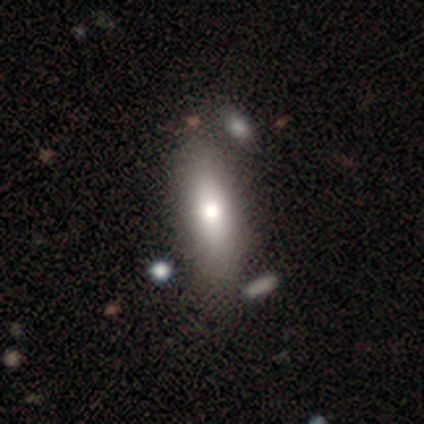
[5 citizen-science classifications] A smooth galaxy with no disk features (60%) that is in between round and cigar-shaped (67%).

Vote fractions:
- Smooth or featured? smooth: 60% / featured or disk: 40% / star or artifact: 0%
- How rounded? in between: 67% / cigar-shaped: 33% / round: 0%
- Merging? none: 80% / minor disturbance: 20% / major disturbance: 0% / merger: 0%